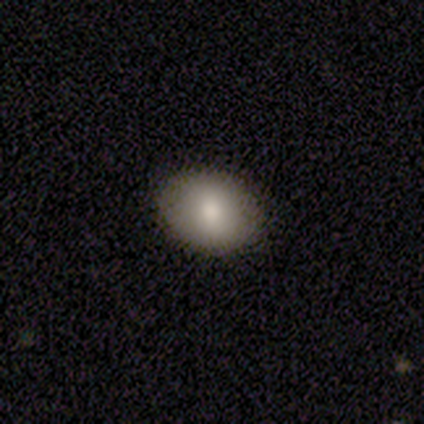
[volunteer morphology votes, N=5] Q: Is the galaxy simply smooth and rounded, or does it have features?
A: smooth — 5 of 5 (100%).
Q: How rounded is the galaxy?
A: in between — 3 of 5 (60%).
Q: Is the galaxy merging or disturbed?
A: none — 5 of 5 (100%).